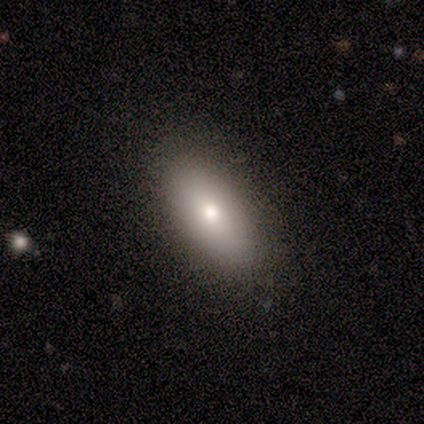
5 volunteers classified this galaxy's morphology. smooth-or-featured: smooth: 60% | featured or disk: 20% | star or artifact: 20%
  how-rounded: in between: 100% | round: 0% | cigar-shaped: 0%
  merging: none: 75% | minor disturbance: 25% | major disturbance: 0% | merger: 0%